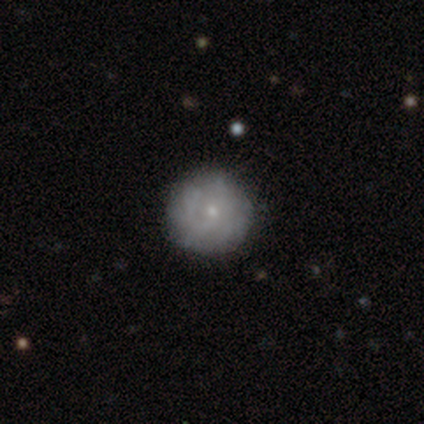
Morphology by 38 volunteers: Overall: smooth (47%; featured or disk 45%). How rounded: round (94%). Merging: none (91%).